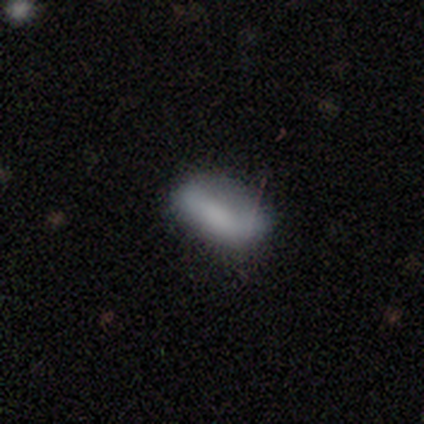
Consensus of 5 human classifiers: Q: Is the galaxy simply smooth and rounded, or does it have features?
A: smooth — 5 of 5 (100%).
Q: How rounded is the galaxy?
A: in between — 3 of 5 (60%).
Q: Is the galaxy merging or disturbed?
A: none — 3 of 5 (60%).